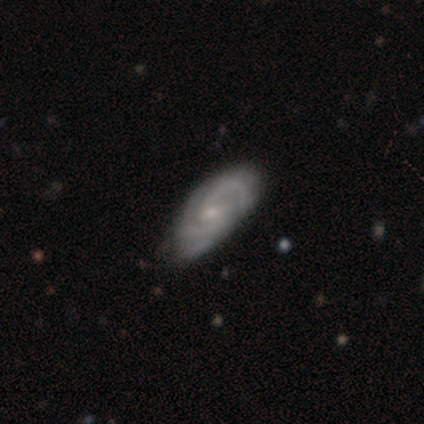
This is likely a featured or disk galaxy (79%). It is clearly not viewed edge-on (100%). Bar: likely weak (61%). Spiral arm pattern: clearly yes (100%). Spiral arm count: possibly 2 (48%). Spiral winding: possibly tight (48%). Central bulge: likely small (77%). Merging: likely none (72%).